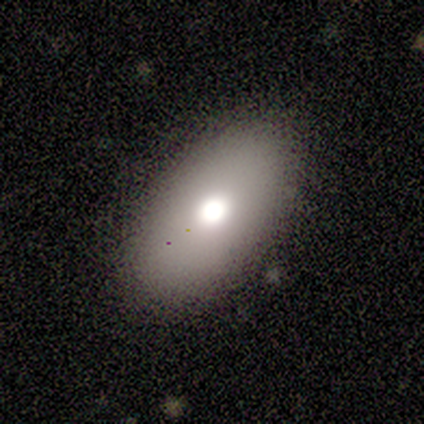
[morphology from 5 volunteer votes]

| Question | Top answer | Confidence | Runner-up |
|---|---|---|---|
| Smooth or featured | smooth | 100% | — |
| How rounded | in between | 100% | — |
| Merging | none | 40% | tied: minor disturbance (40%) |